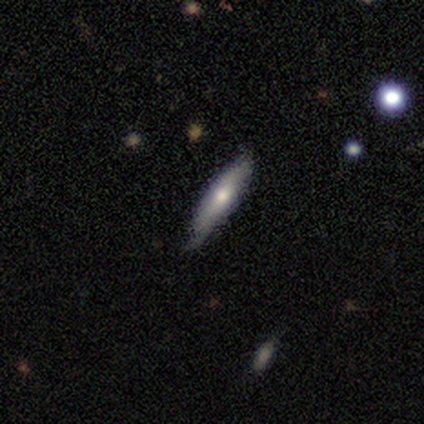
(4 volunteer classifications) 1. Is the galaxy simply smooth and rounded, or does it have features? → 75% smooth, 25% featured or disk, 0% star or artifact.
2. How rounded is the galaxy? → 100% cigar-shaped, 0% round, 0% in between.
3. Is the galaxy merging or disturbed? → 50% none (tied), 50% minor disturbance (tied), 0% major disturbance, 0% merger.